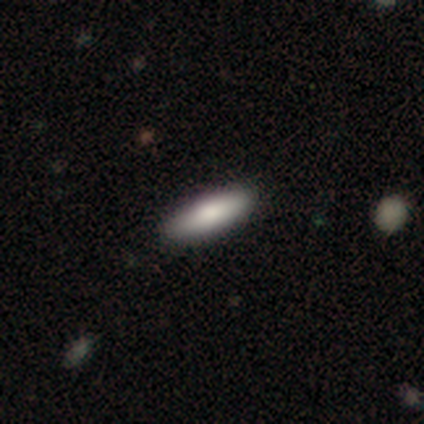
smooth-or-featured: smooth: 100% | featured or disk: 0% | star or artifact: 0%
  how-rounded: cigar-shaped: 60% | in between: 40% | round: 0%
  merging: none: 100% | minor disturbance: 0% | major disturbance: 0% | merger: 0%